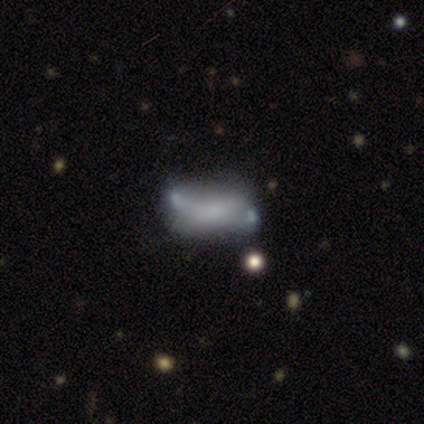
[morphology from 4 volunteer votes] This is possibly a smooth galaxy (50%, tied with featured or disk). How rounded: clearly in between (100%). Merging: possibly major disturbance (50%).